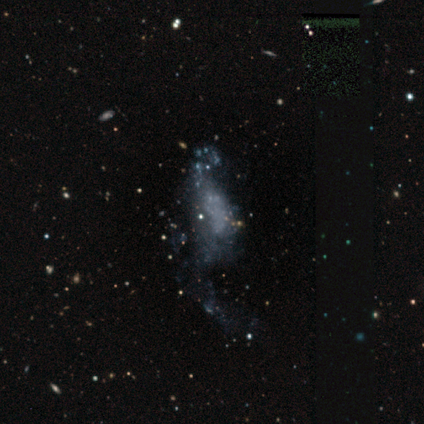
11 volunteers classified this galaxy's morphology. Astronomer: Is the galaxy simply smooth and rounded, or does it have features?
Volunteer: featured or disk — 45%, tied with star or artifact at 45%.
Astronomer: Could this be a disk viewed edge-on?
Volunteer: no — 100%.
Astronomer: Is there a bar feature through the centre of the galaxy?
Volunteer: no — 100%.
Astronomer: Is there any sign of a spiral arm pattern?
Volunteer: no — 100%.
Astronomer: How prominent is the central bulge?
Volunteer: none — 100%.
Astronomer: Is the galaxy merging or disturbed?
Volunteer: major disturbance — 67%.